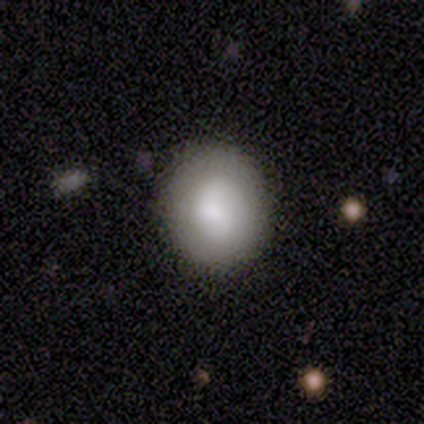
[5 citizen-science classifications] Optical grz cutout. It shows a smooth galaxy with no disk features (60%) that is in between round and cigar-shaped (67%). Merging: none (80%).